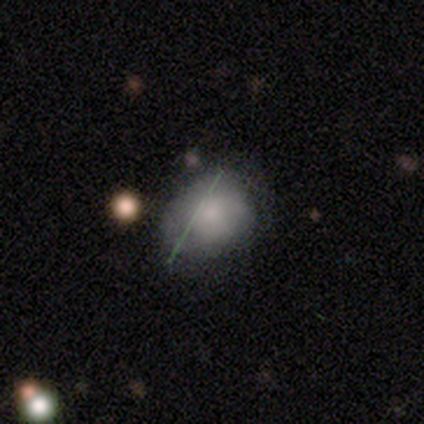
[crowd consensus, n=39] smooth-or-featured: smooth: 59% | featured or disk: 23% | star or artifact: 18%
  how-rounded: in between: 61% | round: 39% | cigar-shaped: 0%
  merging: none: 38% (tied) | minor disturbance: 38% (tied) | major disturbance: 9% | merger: 0%